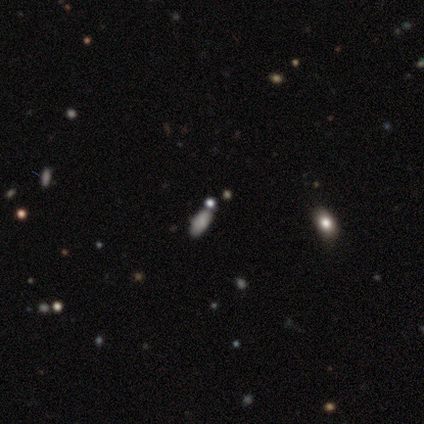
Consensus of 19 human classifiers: Smooth or featured: smooth — 58% (star or artifact — 37%)
How rounded: in between — 82% (cigar-shaped — 18%)
Merging: none — 83% (minor disturbance — 17%)